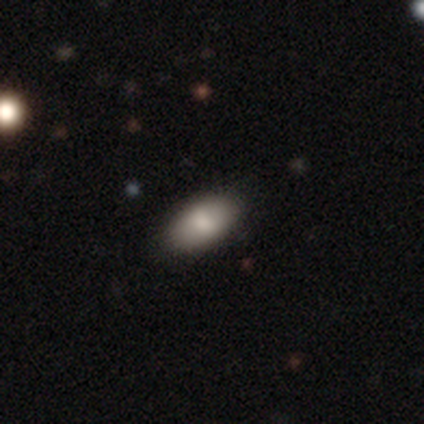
Smooth or featured: smooth — 100%
How rounded: in between — 100%
Merging: none — 100%